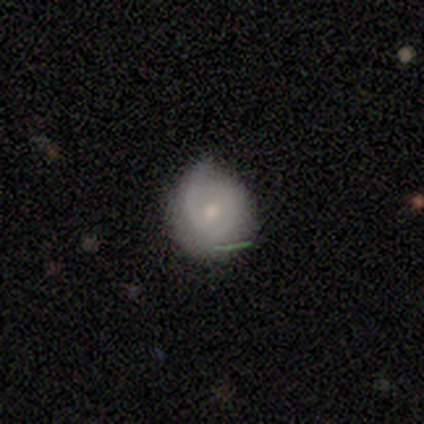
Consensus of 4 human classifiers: Volunteers were most divided on "smooth or featured" (2-way tie): smooth: 50%, featured or disk: 50%, star or artifact: 0%; "merging" (2-way tie): none: 50%, minor disturbance: 50%, major disturbance: 0%, merger: 0%. More confident: how rounded — round (100%).